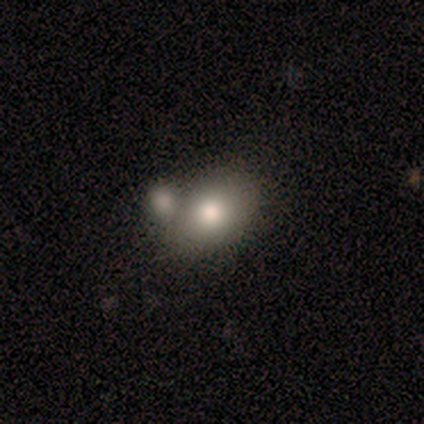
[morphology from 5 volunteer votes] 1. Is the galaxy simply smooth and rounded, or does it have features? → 60% smooth, 40% featured or disk, 0% star or artifact.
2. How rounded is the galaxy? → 67% in between, 33% round, 0% cigar-shaped.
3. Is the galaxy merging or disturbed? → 60% none, 40% merger, 0% minor disturbance, 0% major disturbance.